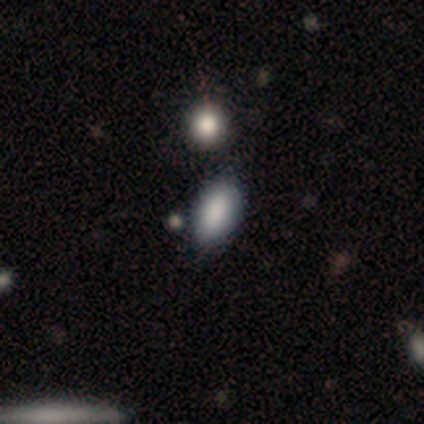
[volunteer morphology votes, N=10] Smooth or featured? 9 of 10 (90%) said smooth. How rounded? 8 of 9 (89%) said in between. Merging? 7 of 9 (78%) said none.